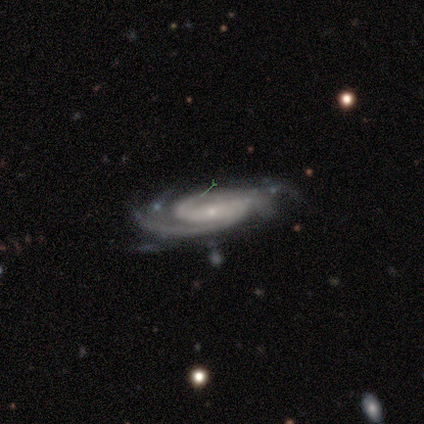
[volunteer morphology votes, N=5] smooth-or-featured: featured or disk: 100% | smooth: 0% | star or artifact: 0%
  disk-edge-on: no: 100% | yes: 0%
    bar: no: 60% | strong: 40% | weak: 0%
    has-spiral-arms: yes: 100% | no: 0%
      spiral-winding: tight: 60% | medium: 40% | loose: 0%
      spiral-arm-count: can't tell: 40% | 1: 20% | 2: 20% | 4: 20% | 3: 0% | more than 4: 0%
    bulge-size: small: 80% | moderate: 20% | dominant: 0% | large: 0% | none: 0%
  merging: none: 40% (tied) | major disturbance: 40% (tied) | minor disturbance: 20% | merger: 0%